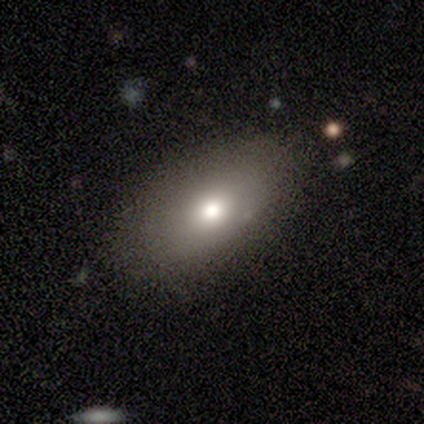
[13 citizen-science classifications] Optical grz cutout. It shows a smooth galaxy with no disk features (69%) that is in between round and cigar-shaped (100%). Merging: none (67%).